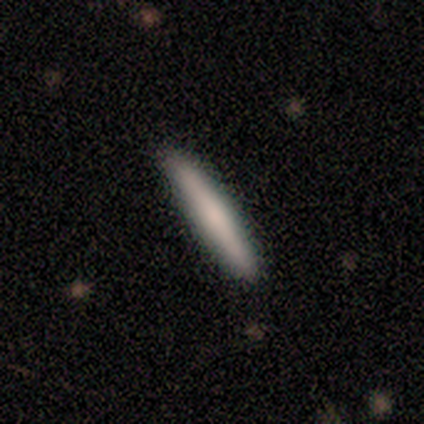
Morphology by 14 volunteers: A smooth galaxy with no disk features (57%) that is cigar-shaped (100%). Merging: none (86%).